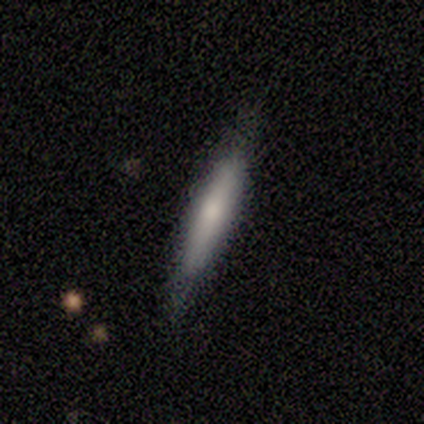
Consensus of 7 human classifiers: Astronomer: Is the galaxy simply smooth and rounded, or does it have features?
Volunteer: smooth — 100%.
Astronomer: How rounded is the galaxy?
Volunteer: cigar-shaped — 100%.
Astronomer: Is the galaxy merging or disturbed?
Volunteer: none — 100%.